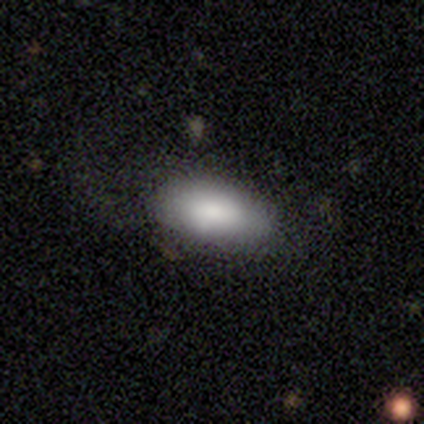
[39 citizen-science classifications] A smooth galaxy with no disk features (77%) that is in between round and cigar-shaped (97%). Merging: none (69%).